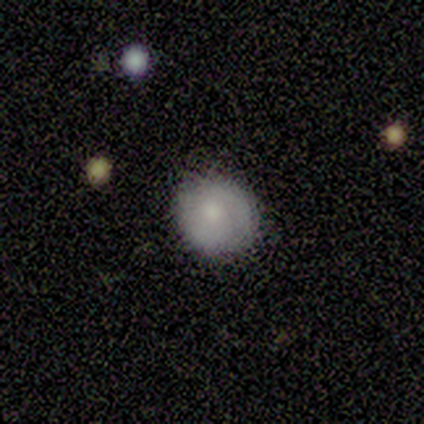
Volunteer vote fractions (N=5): smooth_or_featured: smooth (p=0.80) [alt: featured or disk p=0.20]
how_rounded: round (p=0.75) [alt: in between p=0.25]
merging: none (p=0.80) [alt: minor disturbance p=0.20]